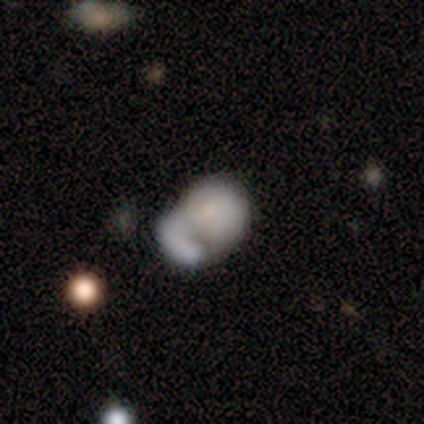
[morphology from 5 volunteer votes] smooth_or_featured: smooth (p=0.80) [alt: featured or disk p=0.20]
how_rounded: round (p=0.75) [alt: in between p=0.25]
merging: merger (p=0.60) [alt: none p=0.20]